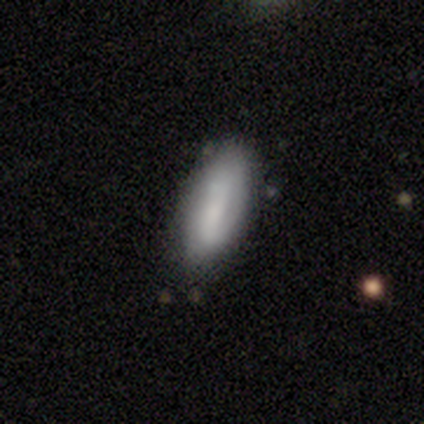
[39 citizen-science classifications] This is likely a smooth galaxy (67%). How rounded: clearly in between (88%). Merging: likely none (64%).